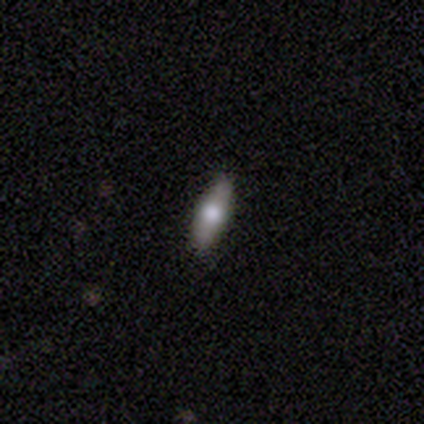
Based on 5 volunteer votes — A smooth galaxy with no disk features (80%) that is in between round and cigar-shaped (50%, tied with cigar-shaped).

Vote fractions:
- Smooth or featured? smooth: 80% / featured or disk: 20% / star or artifact: 0%
- How rounded? in between: 50% (tied) / cigar-shaped: 50% (tied) / round: 0%
- Merging? none: 80% / minor disturbance: 20% / major disturbance: 0% / merger: 0%